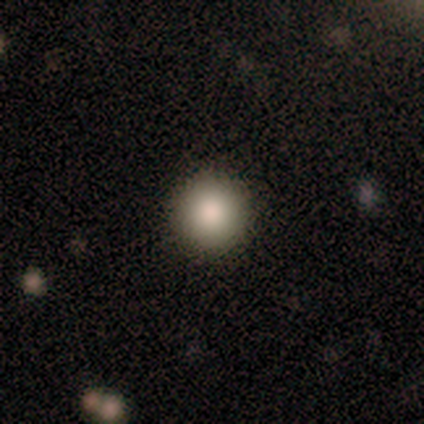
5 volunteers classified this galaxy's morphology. Smooth or featured?
  - smooth: 80% *
  - featured or disk: 20%
  - star or artifact: 0%
How rounded?
  - round: 75% *
  - in between: 25%
  - cigar-shaped: 0%
Merging?
  - none: 80% *
  - minor disturbance: 20%
  - major disturbance: 0%
  - merger: 0%